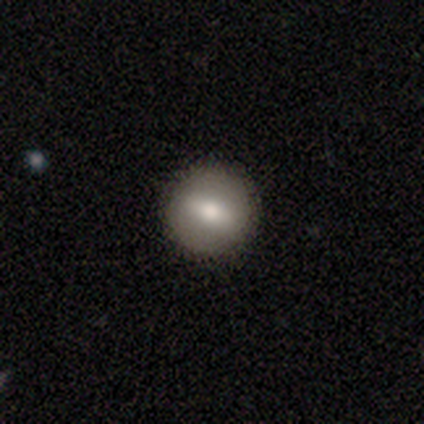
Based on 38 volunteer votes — smooth 61%, featured or disk 34%, star or artifact 5%. Down the decision tree: how rounded — round (78%); merging — none (56%).